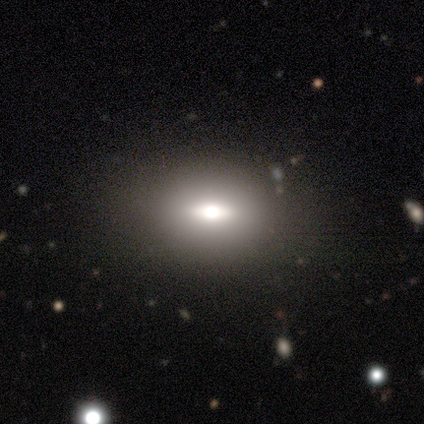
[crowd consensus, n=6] This appears to be a smooth galaxy with no disk features (67%) that is in between round and cigar-shaped (75%). Merging: none (83%).